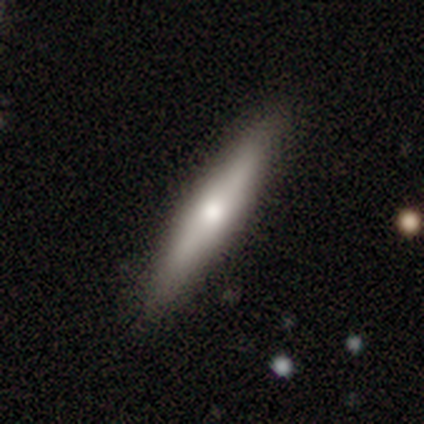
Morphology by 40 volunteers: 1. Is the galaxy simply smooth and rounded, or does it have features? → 57% smooth, 35% featured or disk, 8% star or artifact.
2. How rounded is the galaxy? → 87% cigar-shaped, 13% in between, 0% round.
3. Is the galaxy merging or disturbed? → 89% none, 5% minor disturbance, 3% major disturbance, 3% merger.